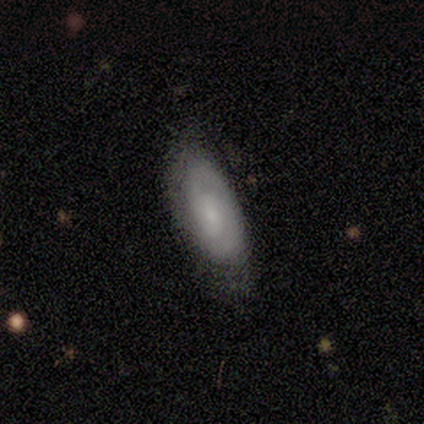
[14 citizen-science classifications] This appears to be a smooth galaxy with no disk features (43%) that is in between round and cigar-shaped (100%). Merging: none (67%).